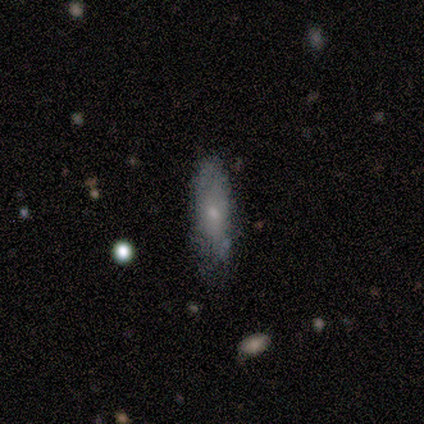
Morphology: type=smooth (60%); roundness=round (33%, tied with in between and cigar-shaped); merging=none (80%).